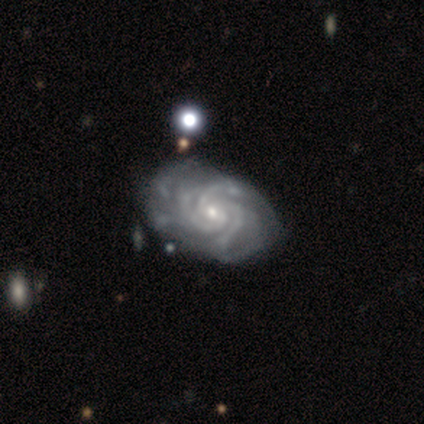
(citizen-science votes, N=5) This is likely a featured or disk galaxy (60%). It is clearly not viewed edge-on (100%). Bar: clearly no (100%). Spiral arm pattern: clearly yes (100%). Spiral arm count: likely 4 (67%). Spiral winding: likely medium (67%). Central bulge: likely small (67%). Merging: likely none (67%).